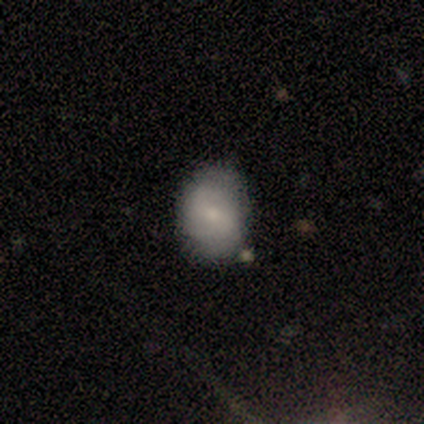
Smooth or featured? smooth (50%, tied with featured or disk)
How rounded? round (50%, tied with in between)
Merging? none (100%)